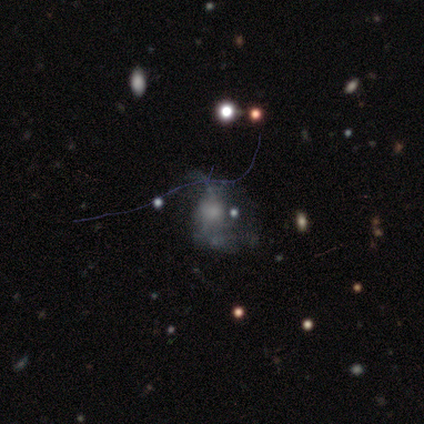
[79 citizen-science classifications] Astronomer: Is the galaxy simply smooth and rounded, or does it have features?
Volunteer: featured or disk — 49% (runner-up: smooth, 27%).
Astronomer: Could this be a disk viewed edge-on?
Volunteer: no — 100%.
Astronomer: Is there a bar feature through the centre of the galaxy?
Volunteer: no — 85%.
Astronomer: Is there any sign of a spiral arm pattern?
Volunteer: no — 64%.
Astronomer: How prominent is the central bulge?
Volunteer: none — 36% (runner-up: moderate, 28%).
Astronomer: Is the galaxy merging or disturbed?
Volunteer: major disturbance — 23% (runner-up: none, 18%).